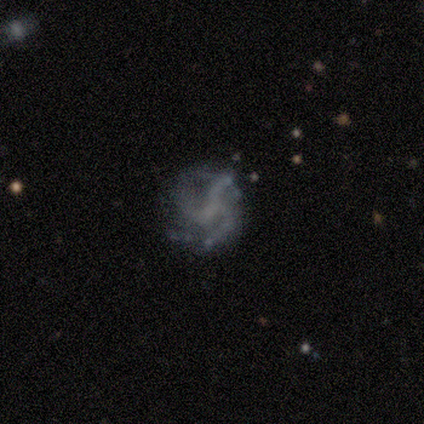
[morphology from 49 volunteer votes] Smooth or featured: featured or disk — 71% (smooth — 14%)
Edge-on disk: no — 100%
Bar: no — 71% (weak — 26%)
Spiral arms: yes — 83% (no — 17%)
Spiral winding: medium — 52% (loose — 45%)
Spiral arm count: 3 — 69% (can't tell — 14%)
Bulge size: none — 74% (small — 23%)
Merging: none — 57% (minor disturbance — 21%)